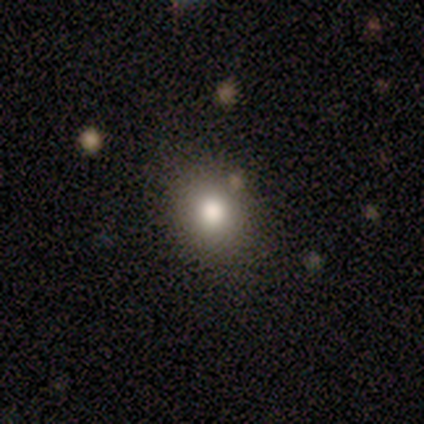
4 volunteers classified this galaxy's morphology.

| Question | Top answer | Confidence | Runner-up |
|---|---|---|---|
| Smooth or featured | smooth | 75% | star or artifact (25%) |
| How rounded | round | 67% | in between (33%) |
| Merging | none | 67% | minor disturbance (33%) |